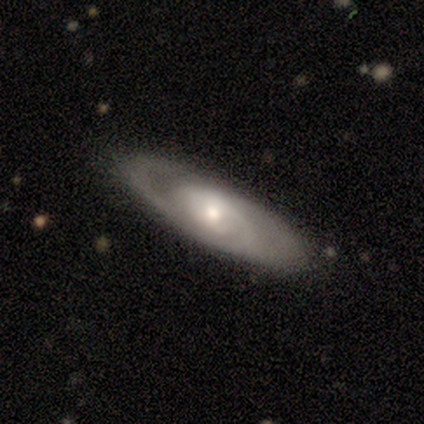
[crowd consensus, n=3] A featured or disk galaxy (100%) viewed edge-on (67%) with a rounded central bulge (100%). Merging: none (100%).